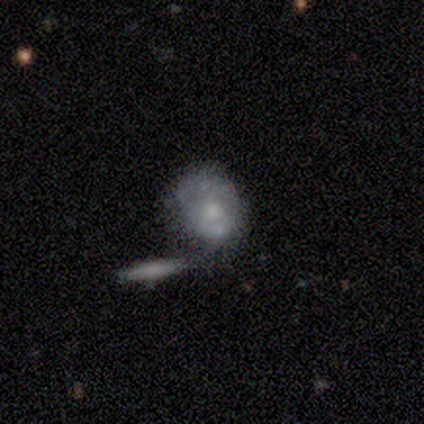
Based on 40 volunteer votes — smooth_or_featured: featured or disk (p=0.47) [alt: smooth p=0.42]
disk_edge_on: no (p=0.95) [alt: yes p=0.05]
bar: no (p=0.94) [alt: strong p=0.06]
has_spiral_arms: no (p=0.78) [alt: yes p=0.22]
bulge_size: moderate (p=0.56) [alt: small p=0.39]
merging: none (p=0.42) [alt: merger p=0.31]